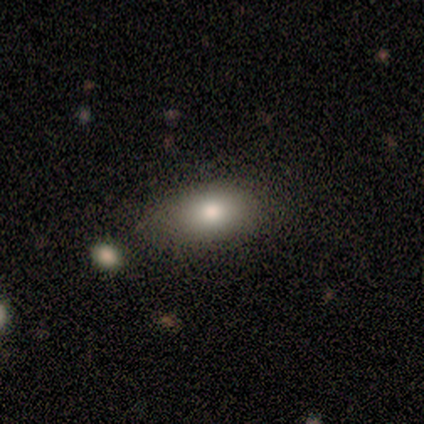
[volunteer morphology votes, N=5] smooth 100%, featured or disk 0%, star or artifact 0%. Down the decision tree: how rounded — in between (100%); merging — none (100%).